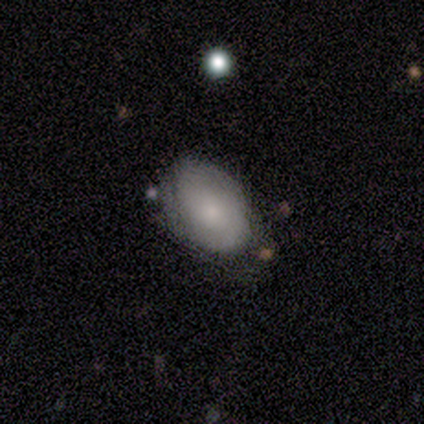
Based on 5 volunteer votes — Smooth or featured?
  - smooth: 60% *
  - featured or disk: 20%
  - star or artifact: 20%
How rounded?
  - in between: 100% *
  - round: 0%
  - cigar-shaped: 0%
Merging?
  - none: 75% *
  - merger: 25%
  - minor disturbance: 0%
  - major disturbance: 0%